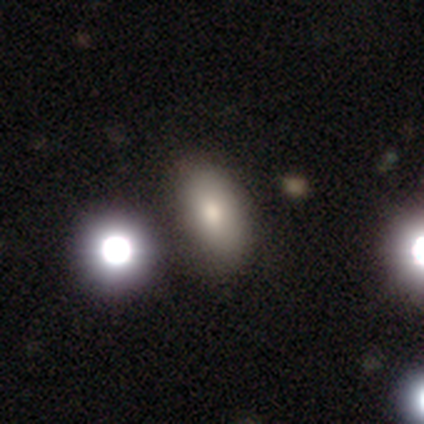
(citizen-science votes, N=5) Overall: featured or disk (40%, tied with star or artifact). Edge-on disk: yes (50%, tied with no). Edge-on bulge: rounded (100%). Merging: none (100%).